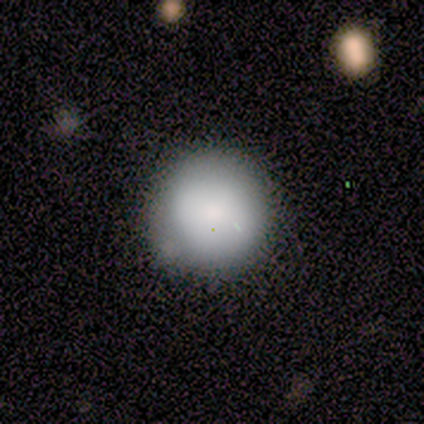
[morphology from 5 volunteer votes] smooth_or_featured: smooth (p=1.00)
how_rounded: round (p=1.00)
merging: none (p=0.80) [alt: major disturbance p=0.20]